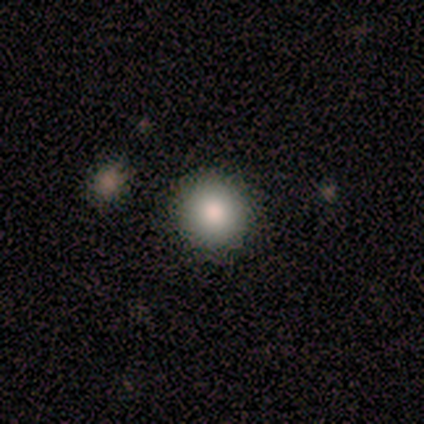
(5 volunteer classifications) smooth_or_featured: smooth (p=0.80) [alt: star or artifact p=0.20]
how_rounded: round (p=0.75) [alt: in between p=0.25]
merging: none (p=1.00)